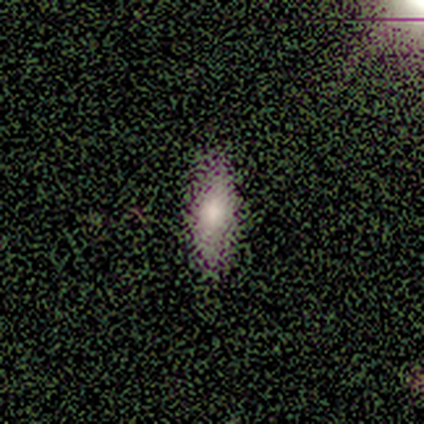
This appears to be a smooth galaxy with no disk features (60%) that is in between round and cigar-shaped (67%). Merging: none (100%).